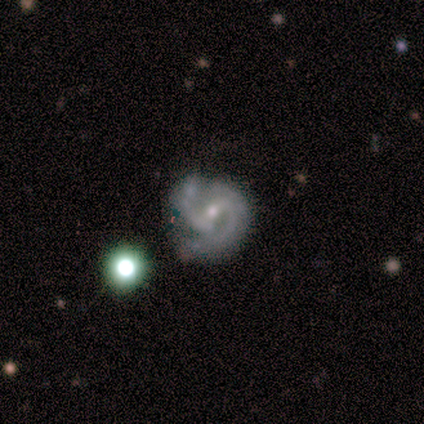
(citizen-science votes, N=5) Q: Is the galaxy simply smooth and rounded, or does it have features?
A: featured or disk — 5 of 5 (100%).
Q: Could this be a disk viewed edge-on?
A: no — 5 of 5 (100%).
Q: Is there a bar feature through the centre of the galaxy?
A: weak — 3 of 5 (60%).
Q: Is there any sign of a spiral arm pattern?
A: yes — 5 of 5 (100%).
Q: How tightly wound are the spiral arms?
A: tight — 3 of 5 (60%).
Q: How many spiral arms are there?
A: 2 — 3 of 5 (60%).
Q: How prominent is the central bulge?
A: small — 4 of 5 (80%).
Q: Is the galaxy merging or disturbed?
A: none — 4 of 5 (80%).